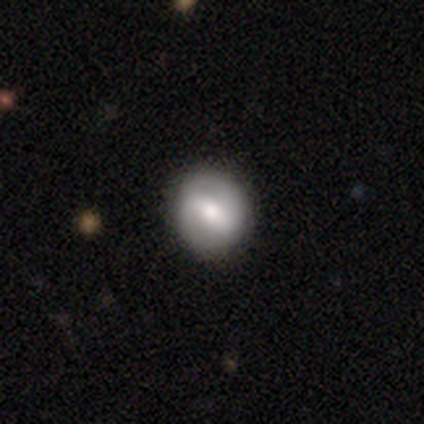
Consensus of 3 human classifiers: This appears to be a featured or disk galaxy (67%) with a strong bar (100%), 2 (100%) tight (50%, tied with loose) spiral arms (100%) and a moderate central bulge (100%). Merging: none (100%).